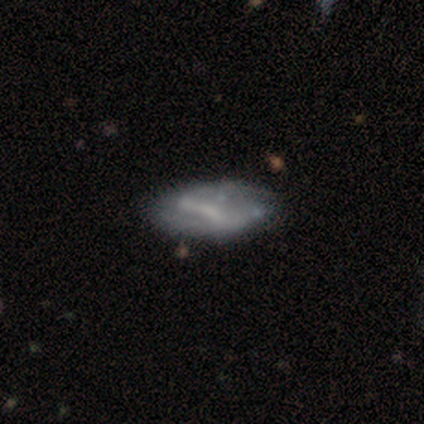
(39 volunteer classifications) Smooth or featured?
  - featured or disk: 77% *
  - smooth: 18%
  - star or artifact: 5%
Edge-on disk?
  - no: 100% *
  - yes: 0%
Bar?
  - strong: 40% * (tied)
  - weak: 40% * (tied)
  - no: 20%
Spiral arms?
  - yes: 53% *
  - no: 47%
Spiral winding?
  - loose: 44% *
  - medium: 38%
  - tight: 19%
Spiral arm count?
  - can't tell: 50% *
  - 2: 44%
  - 1: 6%
  - 3: 0%
  - 4: 0%
  - more than 4: 0%
Bulge size?
  - none: 43% *
  - small: 30%
  - moderate: 27%
  - dominant: 0%
  - large: 0%
Merging?
  - none: 35% *
  - minor disturbance: 27%
  - major disturbance: 11%
  - merger: 5%